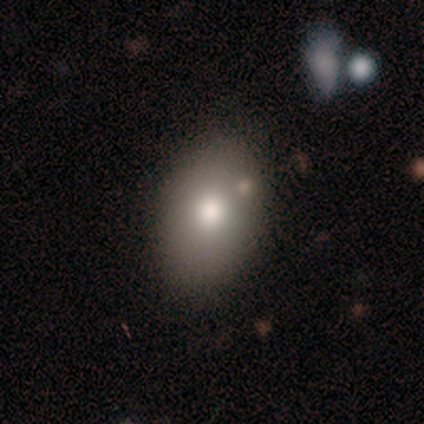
This appears to be a smooth galaxy with no disk features (100%) that is in between round and cigar-shaped (100%). Merging: none (83%).